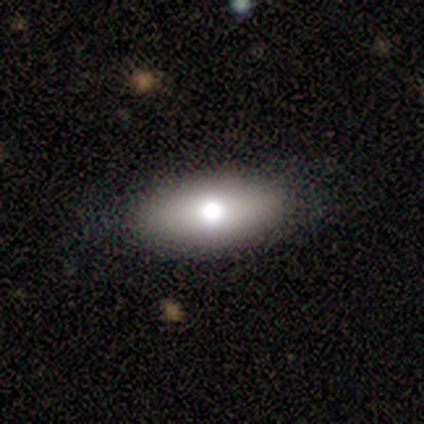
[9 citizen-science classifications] smooth-or-featured: smooth: 56% | featured or disk: 33% | star or artifact: 11%
  how-rounded: in between: 100% | round: 0% | cigar-shaped: 0%
  merging: none: 100% | minor disturbance: 0% | major disturbance: 0% | merger: 0%